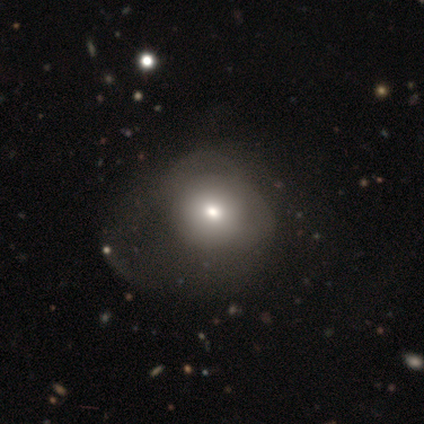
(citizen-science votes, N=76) A smooth galaxy with no disk features (66%) that is round (74%).

Vote fractions:
- Smooth or featured? smooth: 66% / featured or disk: 24% / star or artifact: 11%
- How rounded? round: 74% / in between: 24% / cigar-shaped: 2%
- Merging? major disturbance: 29% / none: 13% / minor disturbance: 7% / merger: 4%